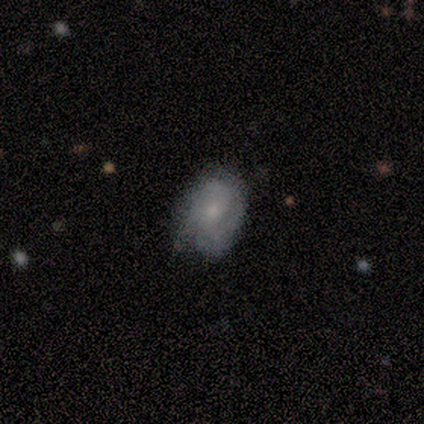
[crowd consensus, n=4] smooth 75%, featured or disk 25%, star or artifact 0%. Down the decision tree: how rounded — in between (100%); merging — none (75%).